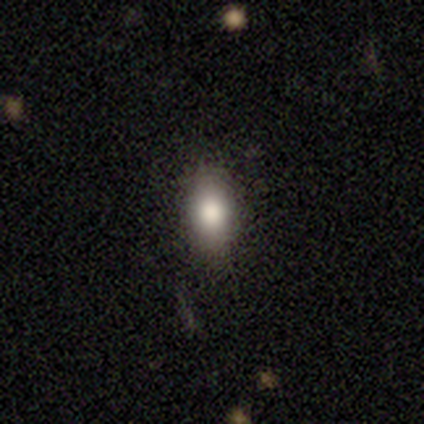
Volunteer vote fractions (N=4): smooth-or-featured: smooth: 100% | featured or disk: 0% | star or artifact: 0%
  how-rounded: in between: 100% | round: 0% | cigar-shaped: 0%
  merging: none: 75% | minor disturbance: 25% | major disturbance: 0% | merger: 0%